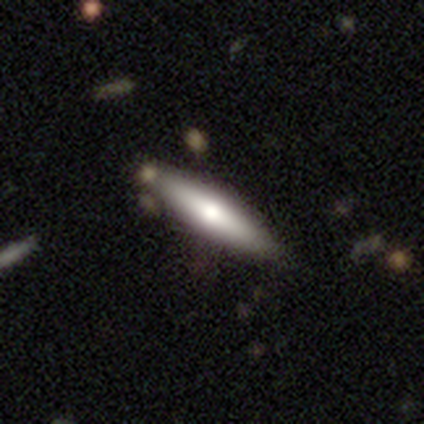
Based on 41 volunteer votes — smooth_or_featured: smooth (p=0.51) [alt: featured or disk p=0.46]
how_rounded: cigar-shaped (p=0.67) [alt: in between p=0.33]
merging: none (p=0.88) [alt: merger p=0.07]